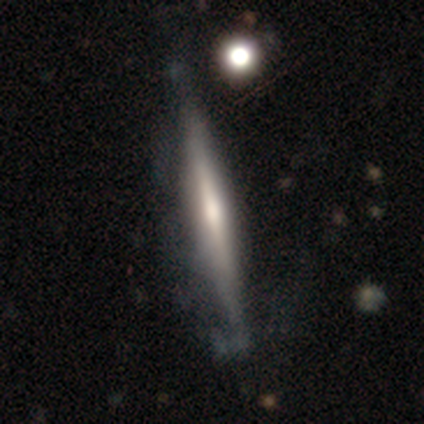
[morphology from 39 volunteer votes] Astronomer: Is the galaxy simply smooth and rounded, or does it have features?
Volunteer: featured or disk — 69%.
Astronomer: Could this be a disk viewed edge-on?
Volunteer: yes — 100%.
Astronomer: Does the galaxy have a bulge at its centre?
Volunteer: rounded — 78%.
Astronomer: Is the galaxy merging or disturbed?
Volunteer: none — 32% (runner-up: minor disturbance, 16%).